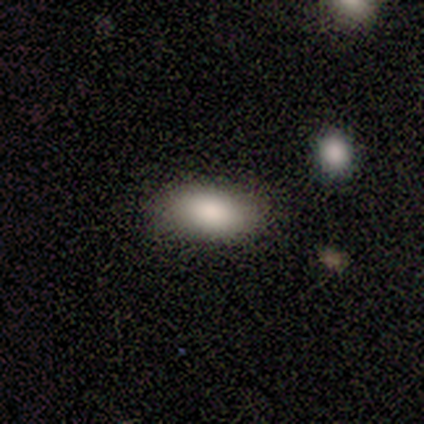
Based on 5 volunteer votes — smooth-or-featured: smooth: 100% | featured or disk: 0% | star or artifact: 0%
  how-rounded: in between: 80% | cigar-shaped: 20% | round: 0%
  merging: none: 100% | minor disturbance: 0% | major disturbance: 0% | merger: 0%